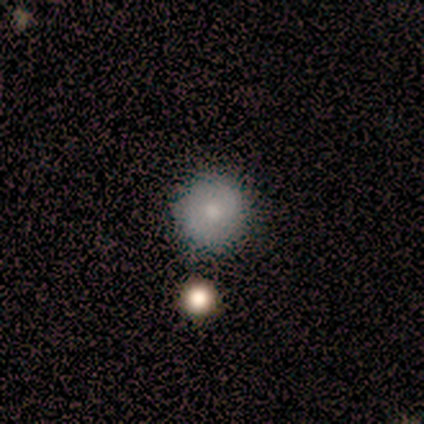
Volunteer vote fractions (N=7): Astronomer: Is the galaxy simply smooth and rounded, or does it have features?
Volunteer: smooth — 71%.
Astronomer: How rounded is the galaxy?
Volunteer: round — 100%.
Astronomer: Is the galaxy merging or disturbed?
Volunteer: none — 83%.